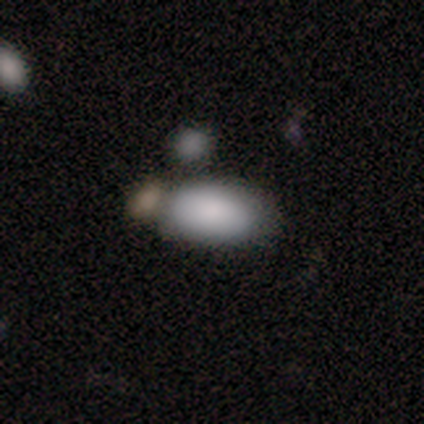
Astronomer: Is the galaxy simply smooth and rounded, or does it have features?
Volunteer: smooth — 100%.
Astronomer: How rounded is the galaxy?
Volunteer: in between — 80%.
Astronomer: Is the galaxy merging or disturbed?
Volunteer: none — 60%.